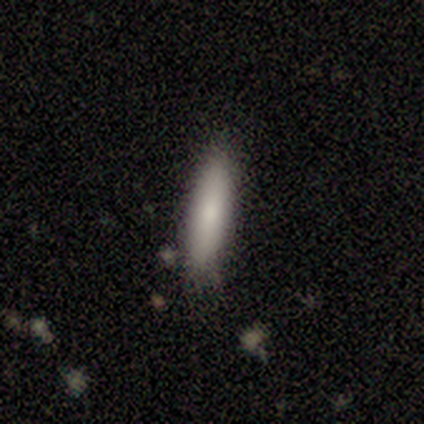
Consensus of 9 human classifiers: smooth_or_featured: smooth (p=0.78) [alt: featured or disk p=0.11]
how_rounded: cigar-shaped (p=0.86) [alt: in between p=0.14]
merging: none (p=0.62) [alt: minor disturbance p=0.38]